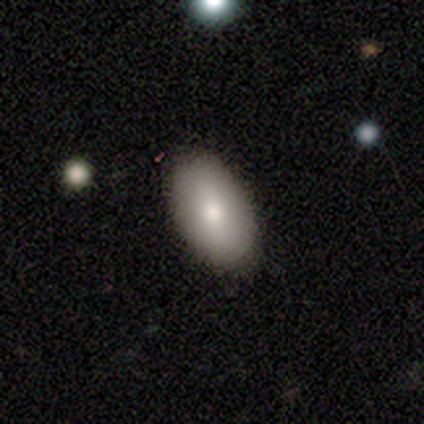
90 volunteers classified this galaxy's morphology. Volunteers were most divided on "smooth or featured": smooth: 86%, featured or disk: 9%, star or artifact: 6%. More confident: how rounded — in between (97%); merging — none (91%).